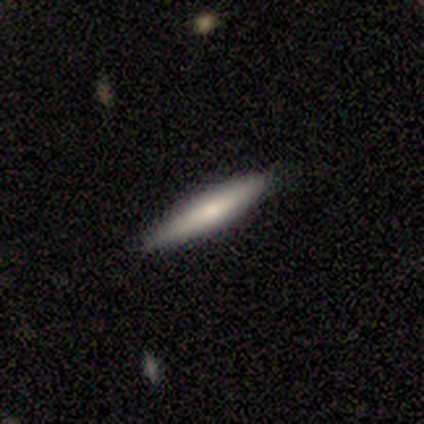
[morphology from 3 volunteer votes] Q: Smooth or featured?
A: smooth (67%); runner-up: featured or disk (33%)
Q: How rounded?
A: cigar-shaped (100%)
Q: Merging?
A: none (100%)